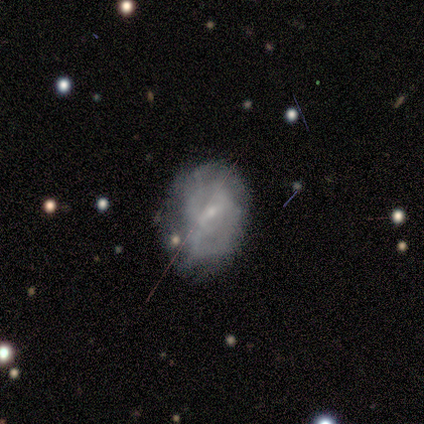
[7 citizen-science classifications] A featured or disk galaxy (43%) with a weak bar (67%), tight (50%, tied with medium) spiral arms (67%) and a small central bulge (100%). Merging: minor disturbance (40%).